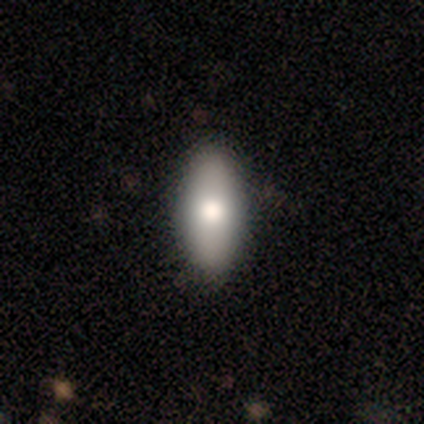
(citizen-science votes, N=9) Q: Smooth or featured?
A: smooth (67%); runner-up: featured or disk (22%)
Q: How rounded?
A: in between (100%)
Q: Merging?
A: none (88%); runner-up: minor disturbance (12%)